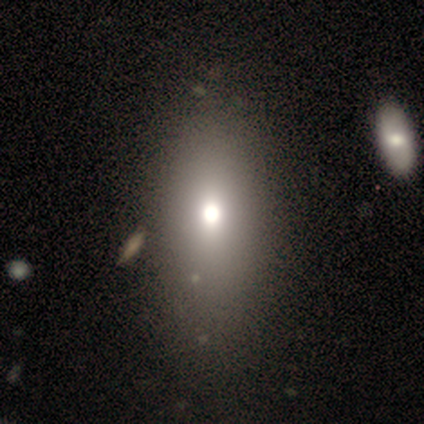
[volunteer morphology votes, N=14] Smooth or featured: smooth — 93% (star or artifact — 7%)
How rounded: in between — 92% (cigar-shaped — 8%)
Merging: none — 38% (merger — 15%)